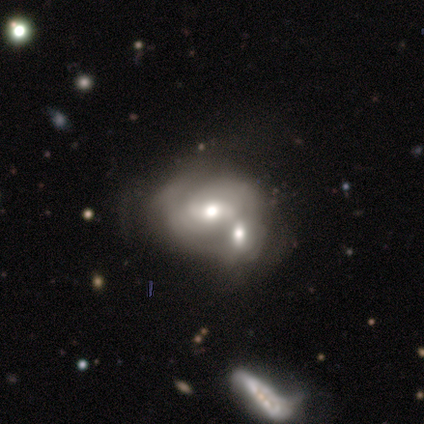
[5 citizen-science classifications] This appears to be a featured or disk galaxy (60%) with no bar (100%), medium (50%, tied with loose) spiral arms (67%) and a large central bulge (33%, tied with moderate and small). Merging: none (50%, tied with merger).